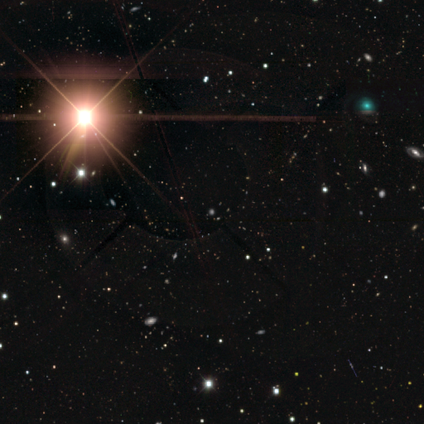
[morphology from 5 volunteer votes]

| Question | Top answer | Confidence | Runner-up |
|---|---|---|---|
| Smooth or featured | star or artifact | 80% | smooth (20%) |